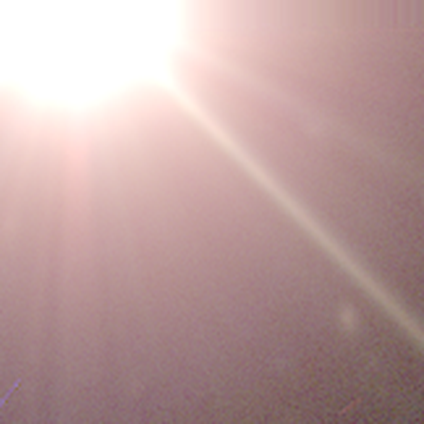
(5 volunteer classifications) A star or artifact, not a galaxy (100%).

Vote fractions:
- Smooth or featured? star or artifact: 100% / smooth: 0% / featured or disk: 0%